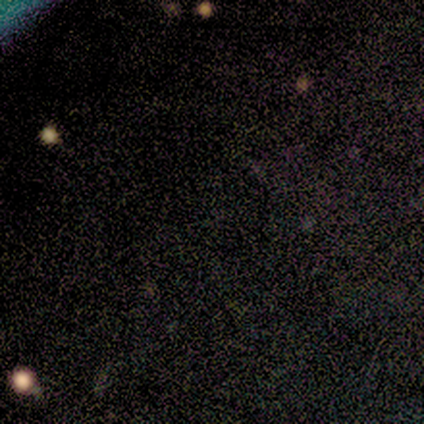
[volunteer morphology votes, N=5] This is clearly a star or artifact rather than a galaxy (80%).